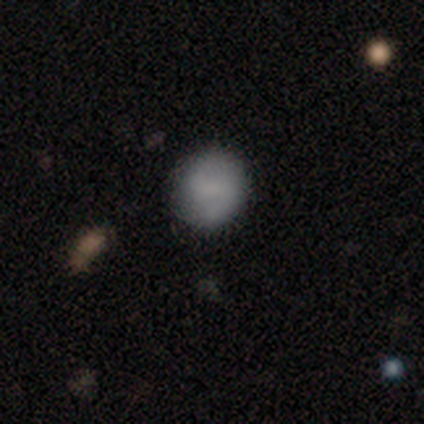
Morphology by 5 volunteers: This appears to be a featured or disk galaxy (60%) with a weak bar (67%), 2 (100%) loose (67%) spiral arms (100%) and no central bulge (100%). Merging: none (100%).